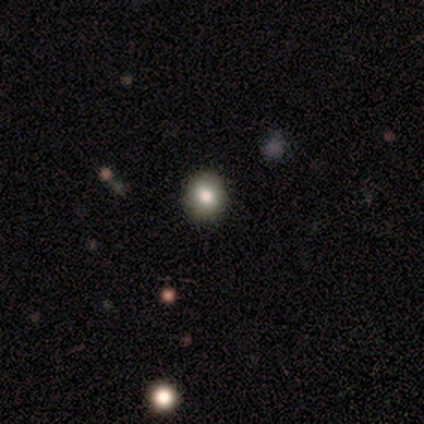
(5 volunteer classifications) This appears to be a smooth galaxy with no disk features (100%) that is round (100%). Merging: none (100%).